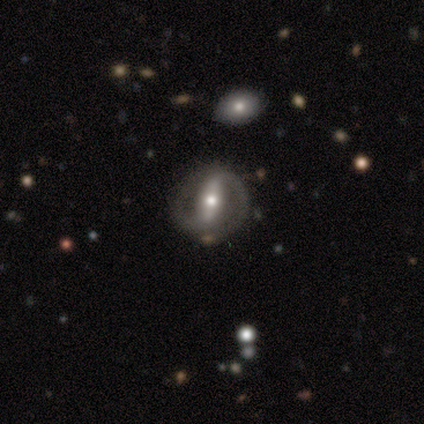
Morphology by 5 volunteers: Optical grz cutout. It shows a featured or disk galaxy (100%) with a strong bar (80%), 2 (100%) tight (100%) spiral arms (80%) and a moderate central bulge (60%). Merging: none (80%).